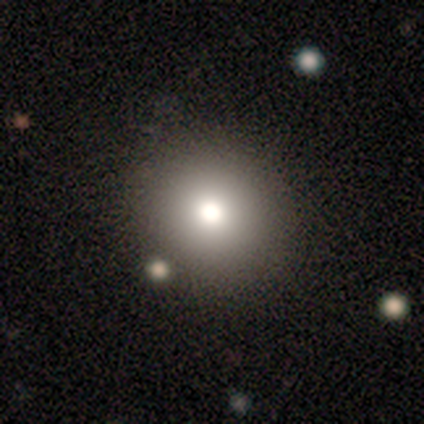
This appears to be a smooth galaxy with no disk features (77%) that is round (90%). Merging: none (61%).